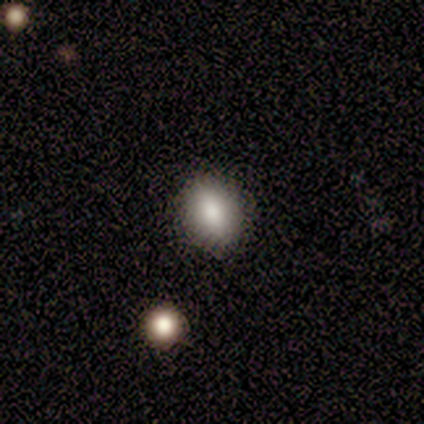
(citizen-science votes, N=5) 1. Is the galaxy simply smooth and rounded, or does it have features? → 80% smooth, 20% star or artifact, 0% featured or disk.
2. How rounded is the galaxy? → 100% in between, 0% round, 0% cigar-shaped.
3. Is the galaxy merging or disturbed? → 75% none, 25% minor disturbance, 0% major disturbance, 0% merger.